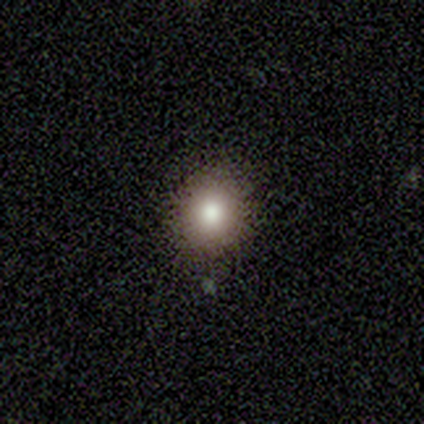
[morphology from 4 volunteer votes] Smooth or featured: smooth — 100%
How rounded: round — 75% (in between — 25%)
Merging: none — 50% (tied with minor disturbance — 50%)